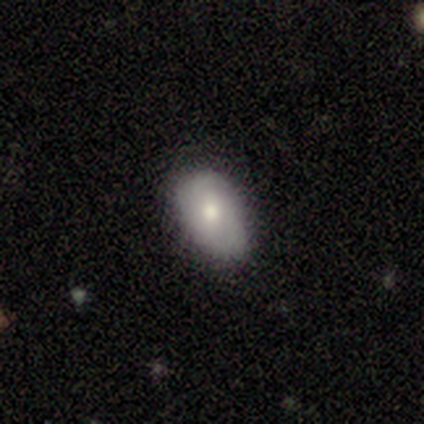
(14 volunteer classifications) Overall: smooth (71%). How rounded: in between (90%). Merging: none (79%).